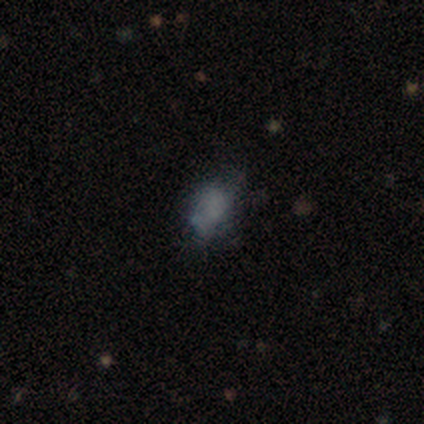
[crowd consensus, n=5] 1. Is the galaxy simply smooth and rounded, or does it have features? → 40% smooth (tied), 40% featured or disk (tied), 20% star or artifact.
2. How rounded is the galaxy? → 100% in between, 0% round, 0% cigar-shaped.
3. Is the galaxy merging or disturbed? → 75% minor disturbance, 25% major disturbance, 0% none, 0% merger.